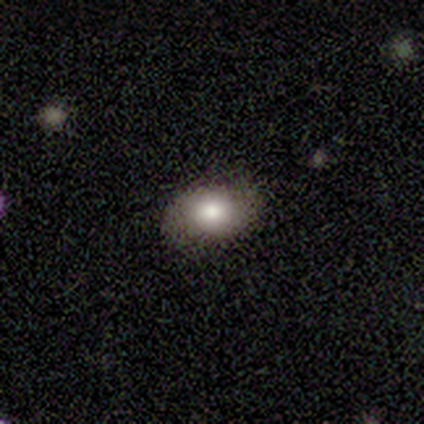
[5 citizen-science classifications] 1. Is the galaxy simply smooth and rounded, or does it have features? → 80% smooth, 20% featured or disk, 0% star or artifact.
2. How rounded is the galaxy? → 100% in between, 0% round, 0% cigar-shaped.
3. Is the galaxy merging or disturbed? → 80% none, 20% minor disturbance, 0% major disturbance, 0% merger.